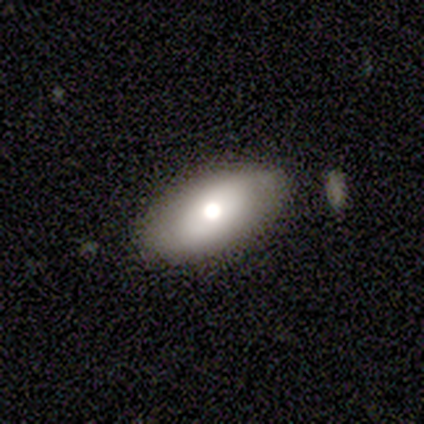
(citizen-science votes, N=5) smooth_or_featured: smooth (p=0.40) [tied with: featured or disk p=0.40]
how_rounded: in between (p=1.00)
merging: none (p=1.00)